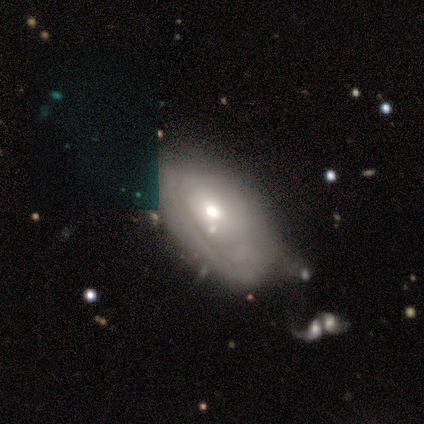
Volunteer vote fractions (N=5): Volunteers were most divided on "spiral arms" (2-way tie): yes: 50%, no: 50%; "spiral winding" (2-way tie): tight: 50%, medium: 50%, loose: 0%; "spiral arm count" (2-way tie): 2: 50%, can't tell: 50%, 1: 0%, 3: 0%, 4: 0%, more than 4: 0%; "merging" (2-way tie): none: 40%, merger: 40%, minor disturbance: 20%, major disturbance: 0%. More confident: edge-on disk — no (100%); bar — no (100%); smooth or featured — featured or disk (80%); bulge size — moderate (50%).